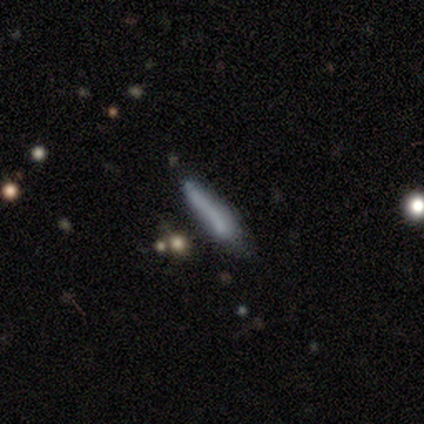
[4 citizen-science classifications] Smooth or featured? smooth (75%)
How rounded? cigar-shaped (100%)
Merging? none (50%, tied with minor disturbance)